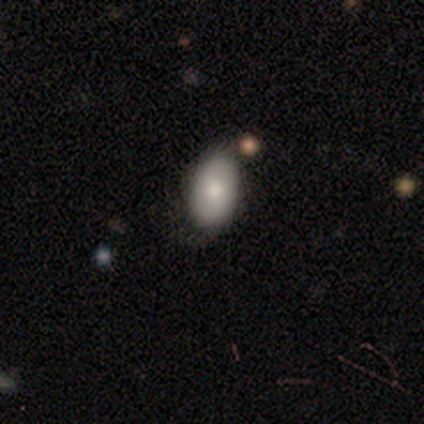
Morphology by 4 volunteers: smooth 100%, featured or disk 0%, star or artifact 0%. Down the decision tree: how rounded — in between (100%); merging — none (50%, tied with minor disturbance).